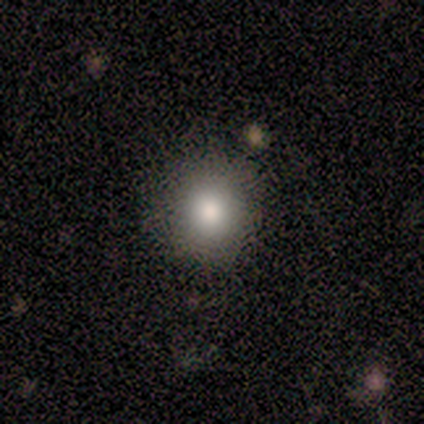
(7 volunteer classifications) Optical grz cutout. It shows a smooth galaxy with no disk features (100%) that is round (86%). Merging: none (86%).